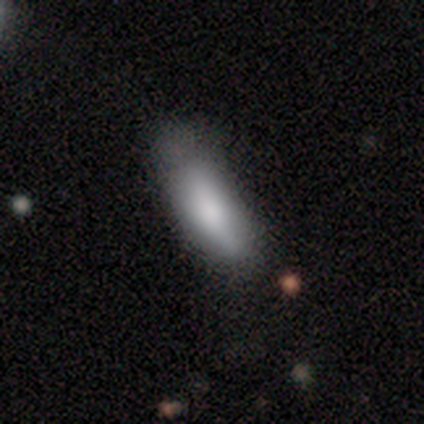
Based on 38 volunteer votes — Overall: smooth (87%). How rounded: in between (70%; cigar-shaped 30%). Merging: none (35%; minor disturbance 19%).